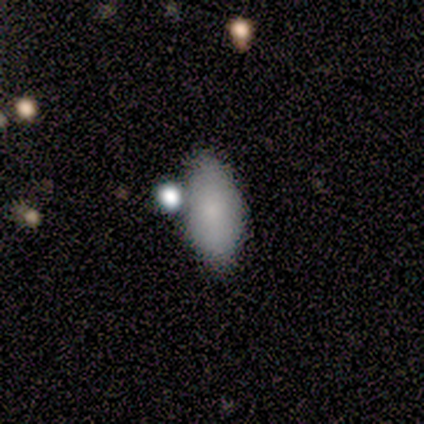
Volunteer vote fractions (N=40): Smooth or featured?
  - smooth: 78% *
  - star or artifact: 15%
  - featured or disk: 8%
How rounded?
  - in between: 94% *
  - round: 3%
  - cigar-shaped: 3%
Merging?
  - none: 50% *
  - minor disturbance: 32%
  - merger: 15%
  - major disturbance: 3%